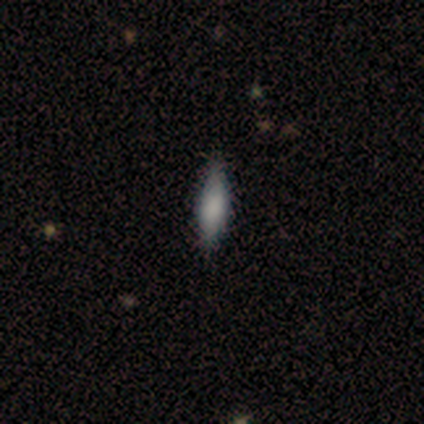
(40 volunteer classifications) This appears to be a smooth galaxy with no disk features (78%) that is in between round and cigar-shaped (61%). Merging: none (81%).